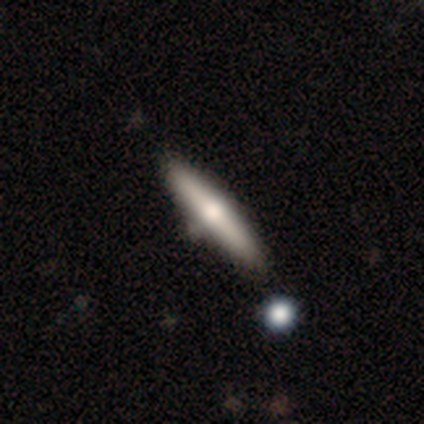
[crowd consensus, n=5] Smooth or featured? smooth (60%)
How rounded? cigar-shaped (67%)
Merging? none (80%)